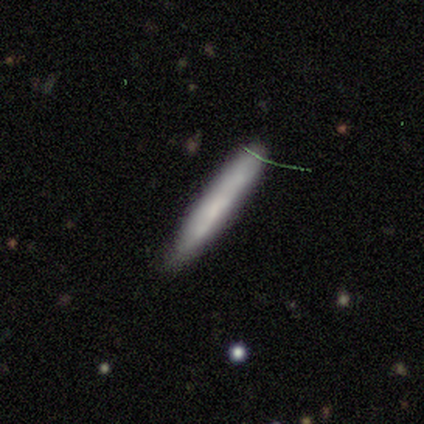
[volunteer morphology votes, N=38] smooth-or-featured: smooth: 63% | featured or disk: 24% | star or artifact: 13%
  how-rounded: cigar-shaped: 100% | round: 0% | in between: 0%
  merging: none: 76% | minor disturbance: 15% | merger: 6% | major disturbance: 3%